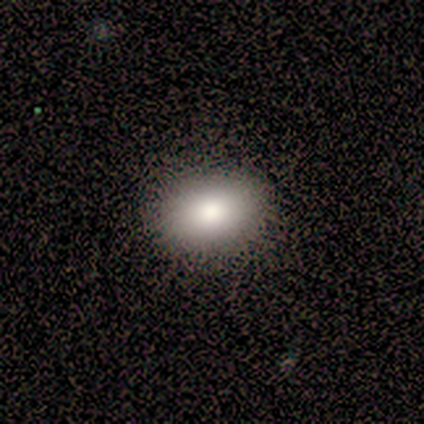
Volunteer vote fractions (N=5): Volunteers were most divided on "smooth or featured": smooth: 80%, star or artifact: 20%, featured or disk: 0%. More confident: how rounded — in between (100%); merging — none (100%).